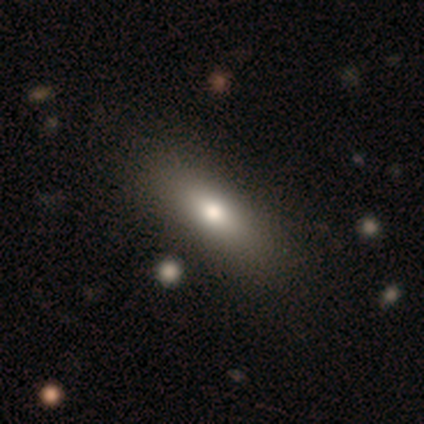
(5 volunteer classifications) smooth_or_featured: smooth (p=0.60) [alt: featured or disk p=0.20]
how_rounded: in between (p=1.00)
merging: none (p=1.00)